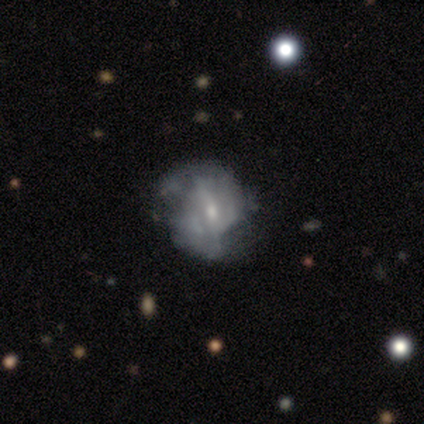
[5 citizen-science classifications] Volunteers were most divided on "smooth or featured" (2-way tie): smooth: 40%, featured or disk: 40%, star or artifact: 20%; "how rounded" (2-way tie): round: 50%, in between: 50%, cigar-shaped: 0%. More confident: merging — none (75%).